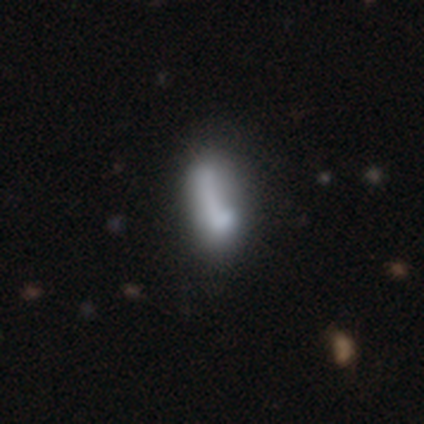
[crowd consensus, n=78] A smooth galaxy with no disk features (68%) that is in between round and cigar-shaped (68%). Merging: none (21%).